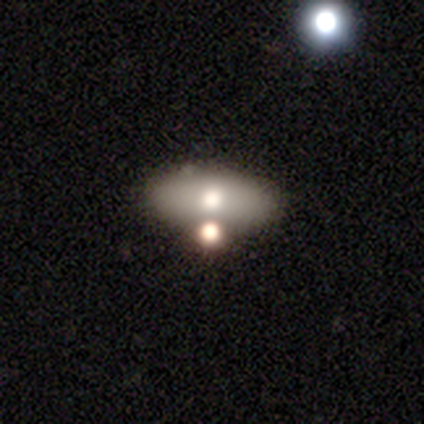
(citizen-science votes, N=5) Morphology: type=smooth (80%); roundness=in between (100%); merging=none (100%).